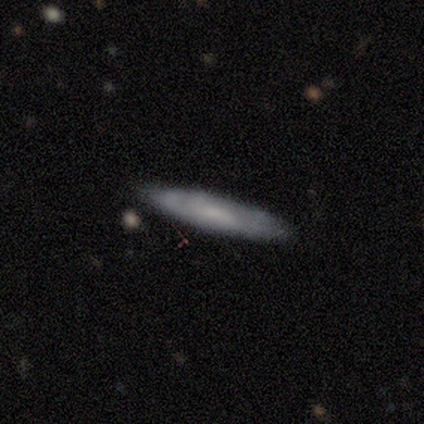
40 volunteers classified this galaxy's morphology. Overall: featured or disk (45%; smooth 42%). Edge-on disk: yes (56%; no 44%). Edge-on bulge: none (60%; rounded 40%). Merging: none (86%).